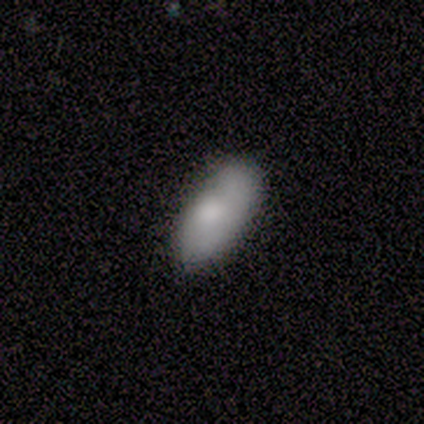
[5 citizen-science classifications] A smooth galaxy with no disk features (80%) that is in between round and cigar-shaped (100%).

Vote fractions:
- Smooth or featured? smooth: 80% / featured or disk: 20% / star or artifact: 0%
- How rounded? in between: 100% / round: 0% / cigar-shaped: 0%
- Merging? none: 40% (tied) / minor disturbance: 40% (tied) / merger: 20% / major disturbance: 0%